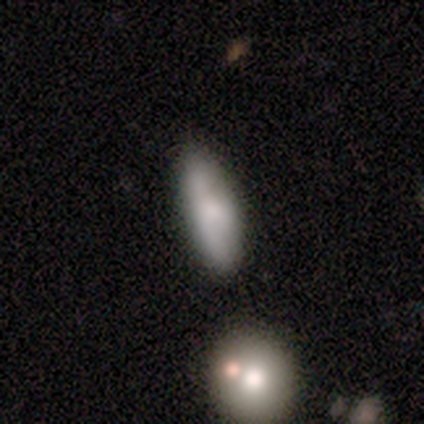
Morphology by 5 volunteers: Q: Smooth or featured?
A: smooth (80%); runner-up: featured or disk (20%)
Q: How rounded?
A: in between (50%); tied with: cigar-shaped (50%)
Q: Merging?
A: none (80%); runner-up: minor disturbance (20%)